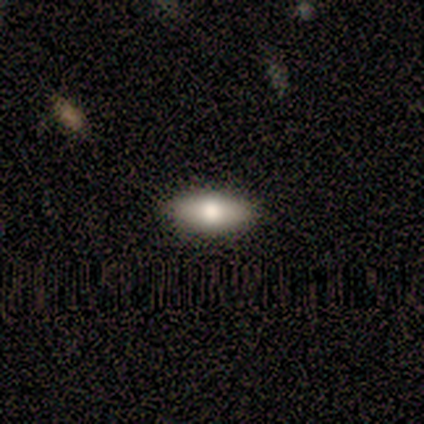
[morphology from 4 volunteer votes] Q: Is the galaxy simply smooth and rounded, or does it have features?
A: smooth — 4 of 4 (100%).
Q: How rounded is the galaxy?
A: in between — 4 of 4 (100%).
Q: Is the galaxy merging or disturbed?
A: none — 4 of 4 (100%).